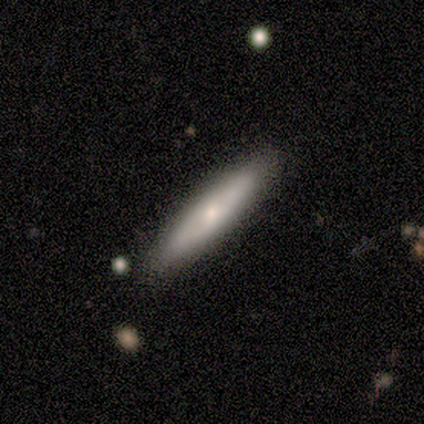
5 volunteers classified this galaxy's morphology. smooth-or-featured: smooth: 80% | featured or disk: 20% | star or artifact: 0%
  how-rounded: cigar-shaped: 100% | round: 0% | in between: 0%
  merging: none: 80% | minor disturbance: 20% | major disturbance: 0% | merger: 0%